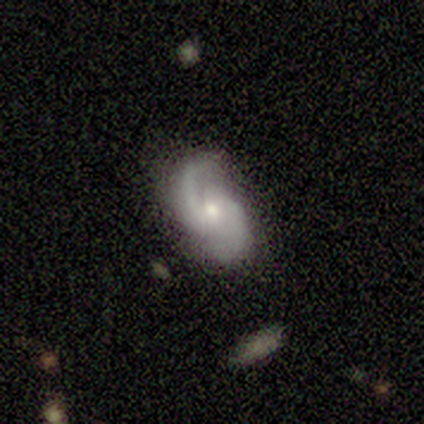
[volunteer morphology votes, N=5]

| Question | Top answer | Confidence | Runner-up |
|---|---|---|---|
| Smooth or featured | featured or disk | 60% | smooth (40%) |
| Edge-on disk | no | 100% | — |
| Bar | weak | 67% | no (33%) |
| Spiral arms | yes | 100% | — |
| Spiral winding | medium | 67% | tight (33%) |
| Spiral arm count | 2 | 67% | can't tell (33%) |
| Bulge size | moderate | 100% | — |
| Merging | none | 60% | minor disturbance (20%) |